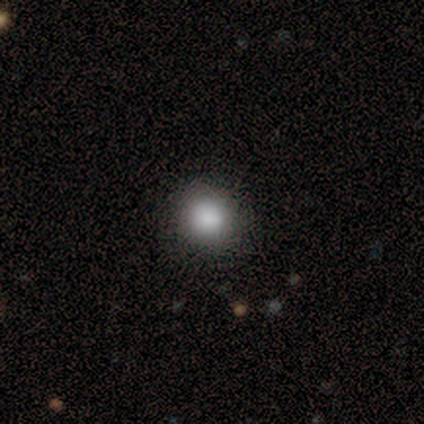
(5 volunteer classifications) This is clearly a smooth galaxy (100%). How rounded: clearly round (100%). Merging: clearly none (100%).